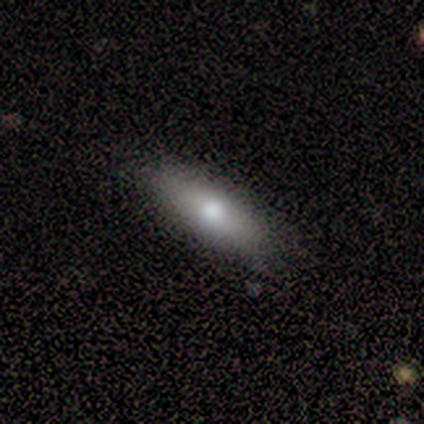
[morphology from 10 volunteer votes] Smooth or featured: smooth — 50% (featured or disk — 40%)
How rounded: cigar-shaped — 60% (in between — 40%)
Merging: none — 100%